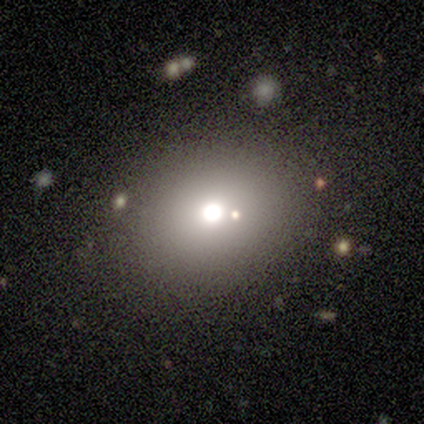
Volunteers were most divided on "smooth or featured": star or artifact: 80%, smooth: 20%, featured or disk: 0%.